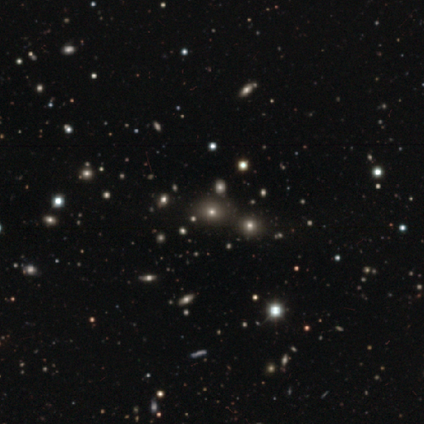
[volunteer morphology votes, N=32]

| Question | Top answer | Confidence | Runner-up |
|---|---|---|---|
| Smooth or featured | star or artifact | 50% | smooth (47%) |